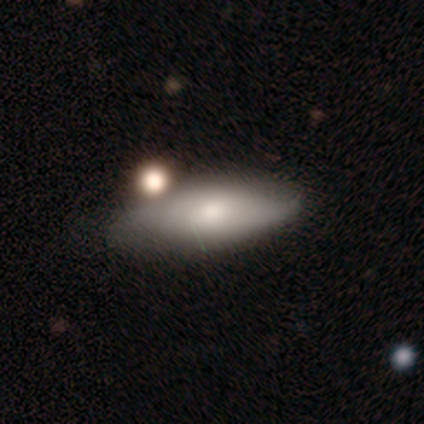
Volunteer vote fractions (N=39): Smooth or featured? smooth (64%)
How rounded? in between (80%)
Merging? none (70%)